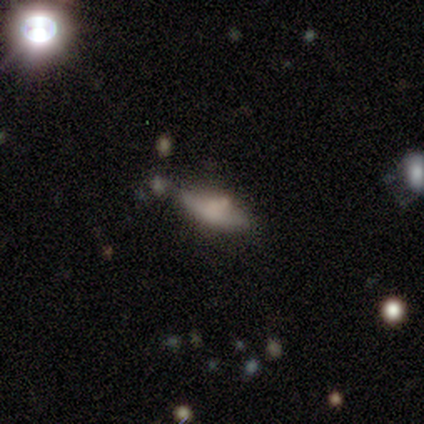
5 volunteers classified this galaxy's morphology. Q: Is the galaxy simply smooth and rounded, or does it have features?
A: featured or disk — 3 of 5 (60%).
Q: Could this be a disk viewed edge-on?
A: no — 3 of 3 (100%).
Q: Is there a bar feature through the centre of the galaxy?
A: no — 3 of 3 (100%).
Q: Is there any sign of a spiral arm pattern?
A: no — 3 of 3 (100%).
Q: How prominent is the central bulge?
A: none — 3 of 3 (100%).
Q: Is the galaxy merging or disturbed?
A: none — 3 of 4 (75%).